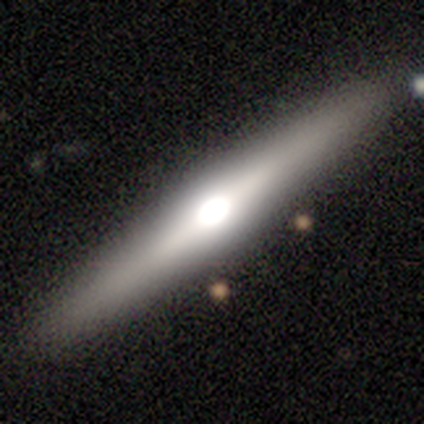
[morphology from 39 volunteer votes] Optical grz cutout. It shows a featured or disk galaxy (77%) viewed edge-on (100%) with a rounded central bulge (93%). Merging: none (95%).